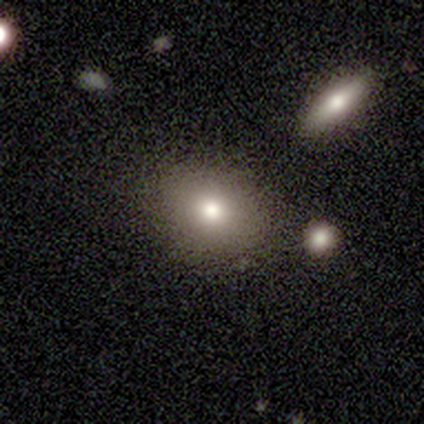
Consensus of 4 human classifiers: smooth 50% (tied), featured or disk 50% (tied), star or artifact 0%. Down the decision tree: how rounded — round (50%, tied with in between); merging — none (100%).